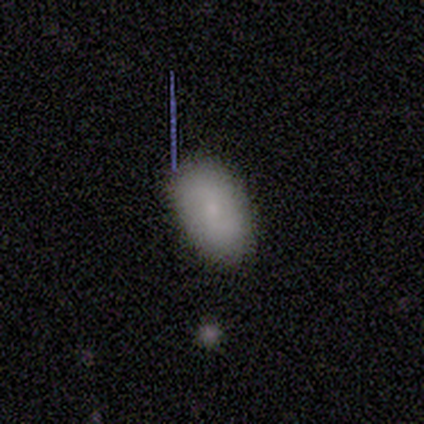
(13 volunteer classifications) This appears to be a smooth galaxy with no disk features (85%) that is in between round and cigar-shaped (100%). Merging: none (100%).